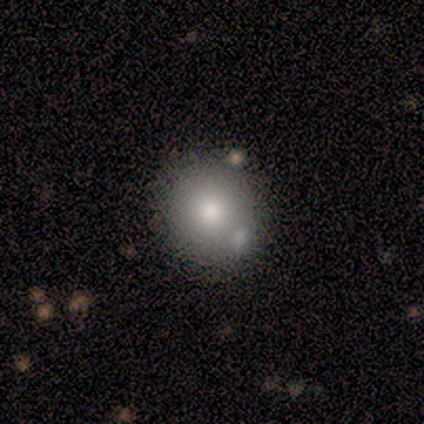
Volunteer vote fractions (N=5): Smooth or featured? 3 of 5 (60%) said featured or disk. Edge-on disk? 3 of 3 (100%) said no. Bar? 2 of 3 (67%) said no. Spiral arms? 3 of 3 (100%) said no. Bulge size? 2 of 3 (67%) said moderate. Merging? 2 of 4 (50%, tied with minor disturbance) said none.